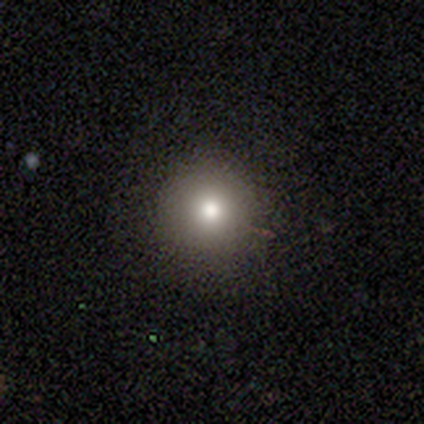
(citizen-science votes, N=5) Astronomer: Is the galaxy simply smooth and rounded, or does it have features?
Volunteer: smooth — 80%.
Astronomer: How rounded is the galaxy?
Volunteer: round — 75%.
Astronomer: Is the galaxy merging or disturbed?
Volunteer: none — 75%.